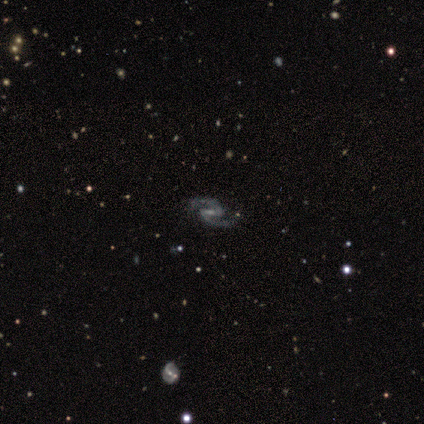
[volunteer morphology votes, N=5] Smooth or featured? 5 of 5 (100%) said featured or disk. Edge-on disk? 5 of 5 (100%) said no. Bar? 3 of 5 (60%) said strong. Spiral arms? 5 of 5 (100%) said yes. Spiral winding? 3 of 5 (60%) said medium. Spiral arm count? 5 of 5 (100%) said 2. Bulge size? 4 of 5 (80%) said small. Merging? 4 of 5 (80%) said none.